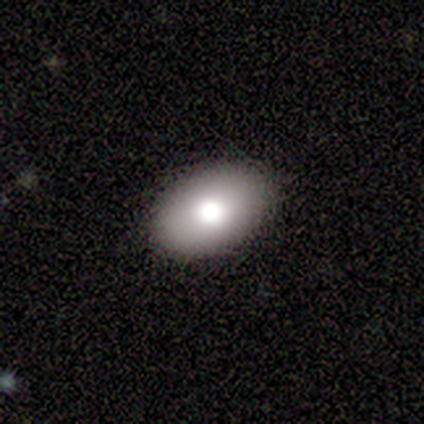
Smooth or featured: smooth — 75% (featured or disk — 25%)
How rounded: in between — 100%
Merging: none — 100%